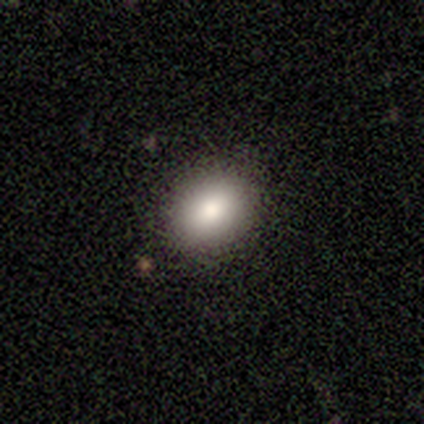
Volunteers were most divided on "how rounded": round: 60%, in between: 40%, cigar-shaped: 0%. More confident: smooth or featured — smooth (100%); merging — none (100%).